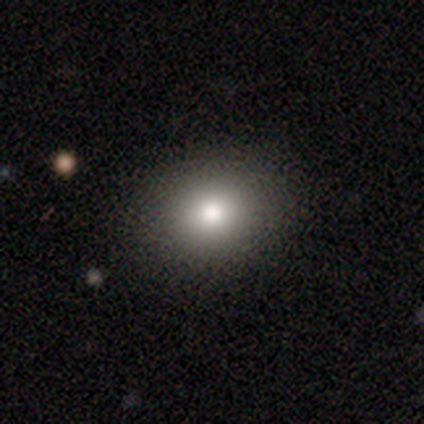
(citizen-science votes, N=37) Morphology: type=smooth (81%); roundness=round (77%); merging=none (91%).